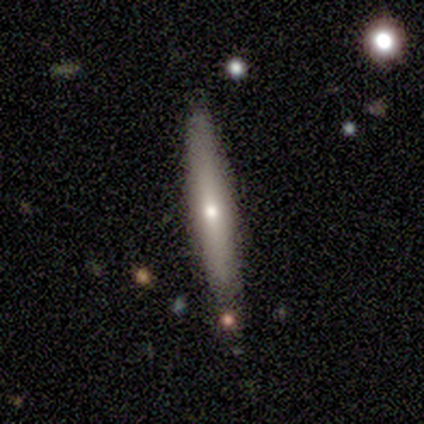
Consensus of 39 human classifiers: Morphology: type=smooth (51%); roundness=cigar-shaped (100%); merging=none (79%).